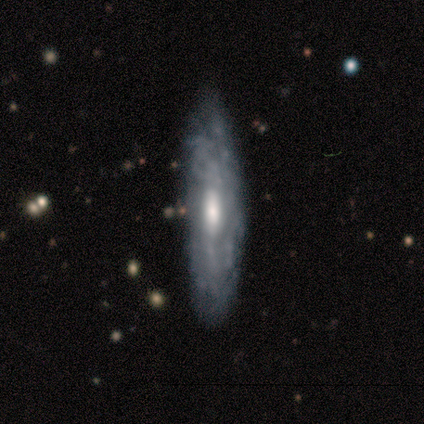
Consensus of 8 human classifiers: Overall: featured or disk (88%). Edge-on disk: no (71%). Bar: no (100%). Spiral arms: no (80%). Bulge size: moderate (60%; large 40%). Merging: none (88%).